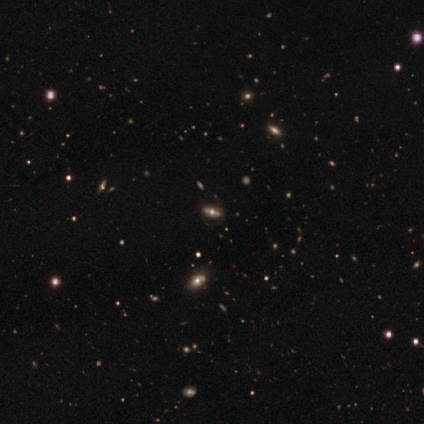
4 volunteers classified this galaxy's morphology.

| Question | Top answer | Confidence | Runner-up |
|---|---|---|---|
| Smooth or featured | star or artifact | 50% | smooth (25%) |